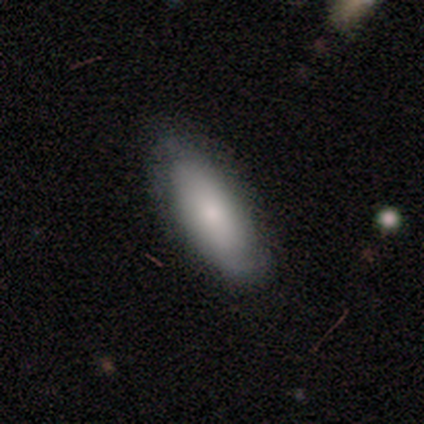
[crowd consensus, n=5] Smooth or featured? 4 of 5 (80%) said smooth. How rounded? 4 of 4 (100%) said in between. Merging? 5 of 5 (100%) said none.